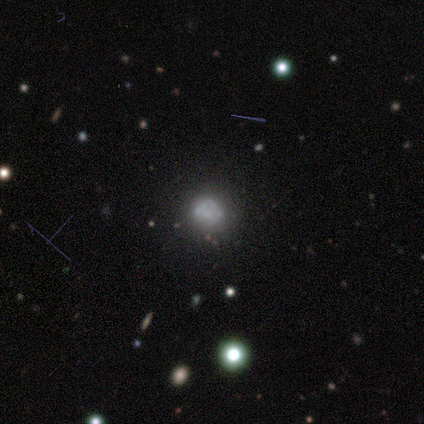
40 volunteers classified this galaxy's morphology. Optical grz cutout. It shows a featured or disk galaxy (57%) with no bar (100%), no spiral arms (91%) and no central bulge (70%). Merging: none (36%).